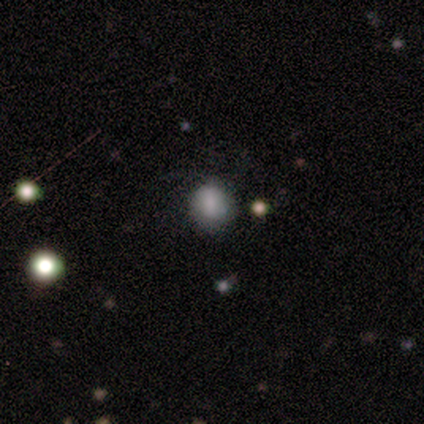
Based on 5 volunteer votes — Smooth or featured: smooth — 100%
How rounded: round — 80% (in between — 20%)
Merging: none — 80% (major disturbance — 20%)